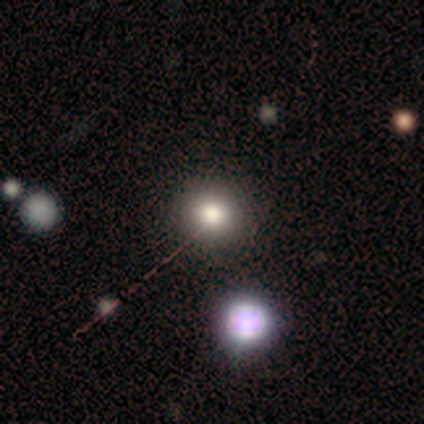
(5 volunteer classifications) Q: Smooth or featured?
A: smooth (80%); runner-up: featured or disk (20%)
Q: How rounded?
A: round (75%); runner-up: in between (25%)
Q: Merging?
A: none (60%); runner-up: minor disturbance (40%)